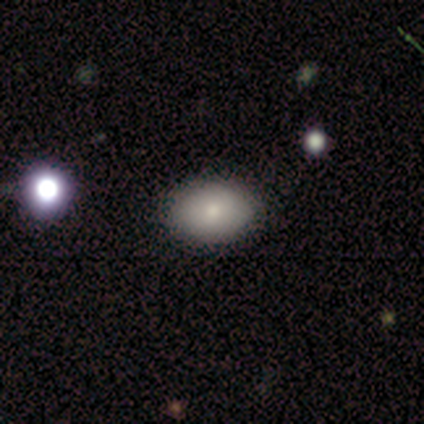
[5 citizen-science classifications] Smooth or featured: smooth — 100%
How rounded: in between — 60% (round — 40%)
Merging: none — 100%